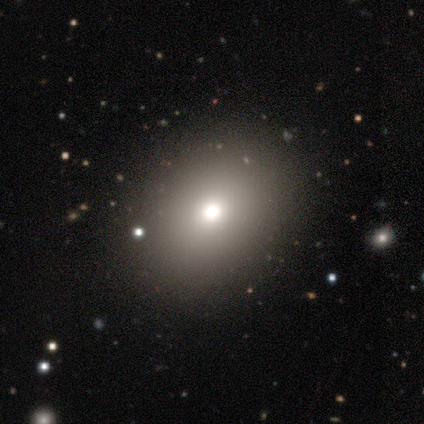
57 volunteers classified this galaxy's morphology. Smooth or featured? 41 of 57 (72%) said smooth. How rounded? 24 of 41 (59%) said in between. Merging? 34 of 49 (69%) said none.